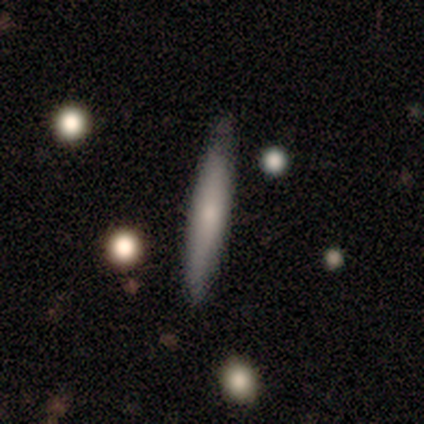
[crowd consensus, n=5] Q: Smooth or featured?
A: smooth (100%)
Q: How rounded?
A: cigar-shaped (100%)
Q: Merging?
A: none (100%)